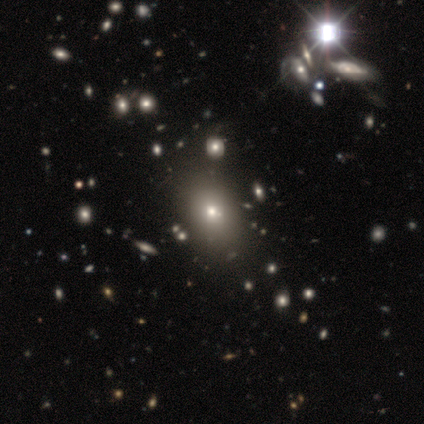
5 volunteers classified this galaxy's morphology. smooth-or-featured: smooth: 40% (tied) | featured or disk: 40% (tied) | star or artifact: 20%
  how-rounded: in between: 100% | round: 0% | cigar-shaped: 0%
  merging: none: 100% | minor disturbance: 0% | major disturbance: 0% | merger: 0%